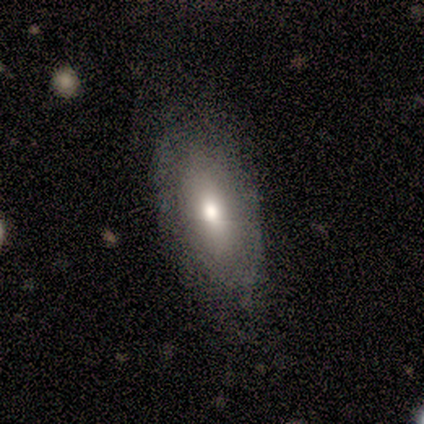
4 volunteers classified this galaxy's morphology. Overall: featured or disk (50%; smooth 25%). Edge-on disk: no (100%). Bar: no (100%). Spiral arms: no (100%). Bulge size: large (50%, tied with moderate). Merging: none (100%).